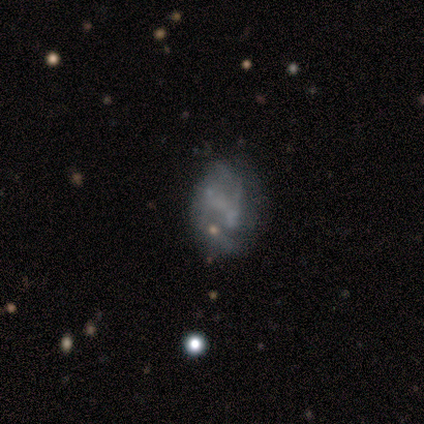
This is likely a featured or disk galaxy (60%). It is clearly not viewed edge-on (100%). Bar: clearly no (100%). Spiral arm pattern: clearly no (100%). Central bulge: clearly none (100%). Merging: likely minor disturbance (67%).